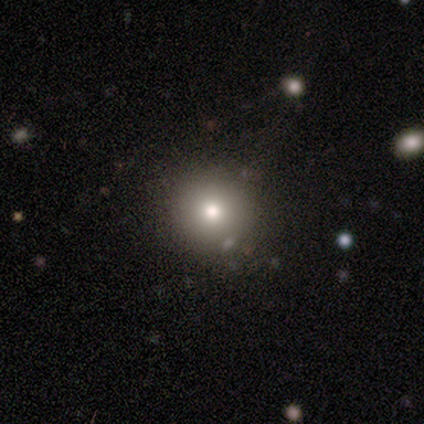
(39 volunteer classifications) Smooth or featured? 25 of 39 (64%) said smooth. How rounded? 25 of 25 (100%) said round. Merging? 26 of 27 (96%) said none.